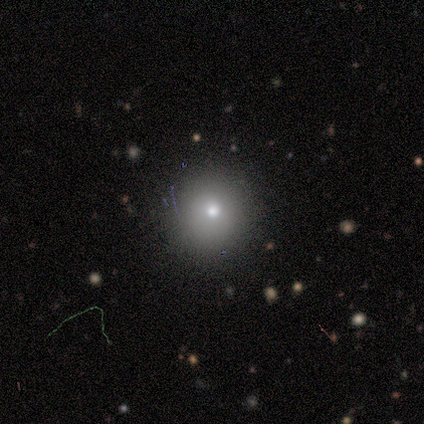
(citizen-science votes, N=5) Smooth or featured?
  - smooth: 80% *
  - star or artifact: 20%
  - featured or disk: 0%
How rounded?
  - round: 100% *
  - in between: 0%
  - cigar-shaped: 0%
Merging?
  - none: 75% *
  - minor disturbance: 25%
  - major disturbance: 0%
  - merger: 0%